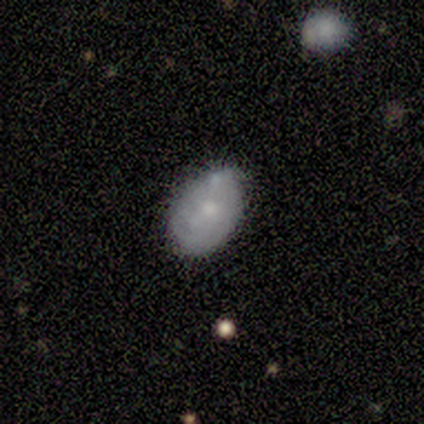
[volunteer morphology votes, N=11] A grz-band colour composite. It shows a smooth galaxy with no disk features (73%) that is in between round and cigar-shaped (75%). Merging: none (100%).